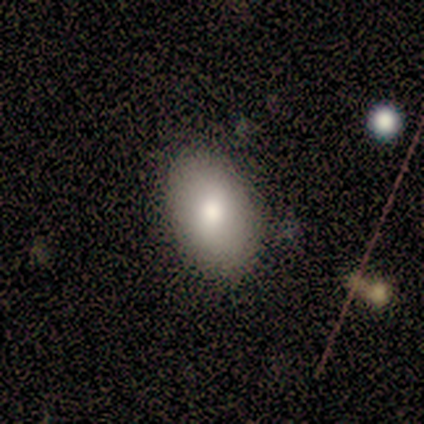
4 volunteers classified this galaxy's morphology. Smooth or featured?
  - smooth: 50% * (tied)
  - featured or disk: 50% * (tied)
  - star or artifact: 0%
How rounded?
  - in between: 100% *
  - round: 0%
  - cigar-shaped: 0%
Merging?
  - none: 75% *
  - minor disturbance: 25%
  - major disturbance: 0%
  - merger: 0%